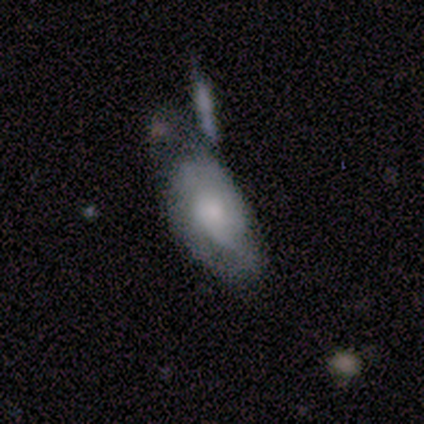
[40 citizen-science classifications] smooth-or-featured: featured or disk: 52% | smooth: 42% | star or artifact: 5%
  disk-edge-on: no: 95% | yes: 5%
    bar: no: 90% | strong: 5% | weak: 5%
    has-spiral-arms: yes: 70% | no: 30%
      spiral-winding: medium: 64% | tight: 36% | loose: 0%
      spiral-arm-count: can't tell: 71% | 1: 14% | 2: 14% | 3: 0% | 4: 0% | more than 4: 0%
    bulge-size: moderate: 30% (tied) | small: 30% (tied) | none: 25% | large: 10% | dominant: 5%
  merging: none: 39% | merger: 34% | minor disturbance: 18% | major disturbance: 8%